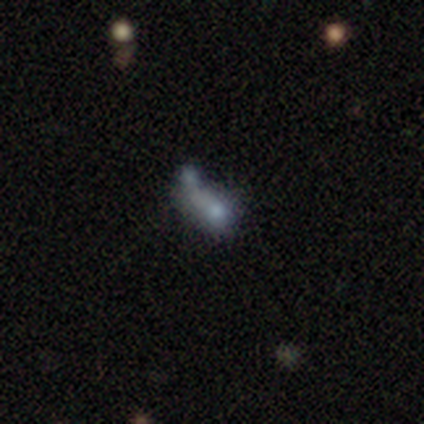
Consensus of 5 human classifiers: featured or disk 40% (tied), star or artifact 40% (tied), smooth 20%. Down the decision tree: edge-on disk — yes (50%, tied with no); edge-on bulge — none (100%); merging — none (67%).